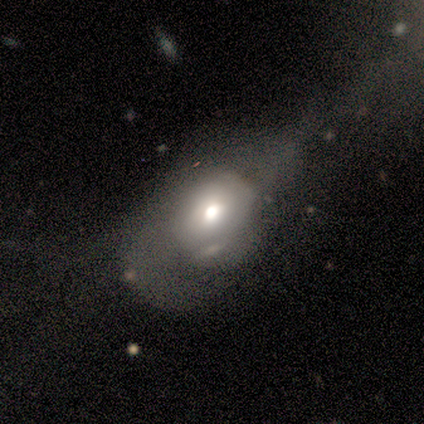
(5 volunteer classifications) Q: Smooth or featured?
A: smooth (60%); runner-up: featured or disk (40%)
Q: How rounded?
A: round (33%); tied with: in between (33%); cigar-shaped (33%)
Q: Merging?
A: major disturbance (60%); runner-up: none (40%)